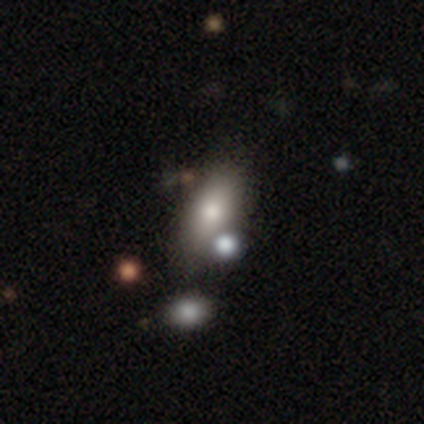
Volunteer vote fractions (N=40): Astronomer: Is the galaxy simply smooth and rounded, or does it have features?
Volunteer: smooth — 65%.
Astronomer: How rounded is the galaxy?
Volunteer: in between — 85%.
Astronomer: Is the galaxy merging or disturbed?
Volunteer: none — 38% (runner-up: merger, 35%).